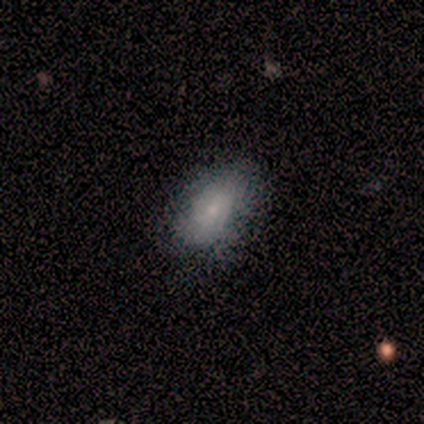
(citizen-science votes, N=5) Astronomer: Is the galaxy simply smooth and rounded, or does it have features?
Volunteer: smooth — 60% (runner-up: featured or disk, 40%).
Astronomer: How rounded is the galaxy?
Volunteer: in between — 100%.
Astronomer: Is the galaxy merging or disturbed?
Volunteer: none — 60% (runner-up: minor disturbance, 40%).